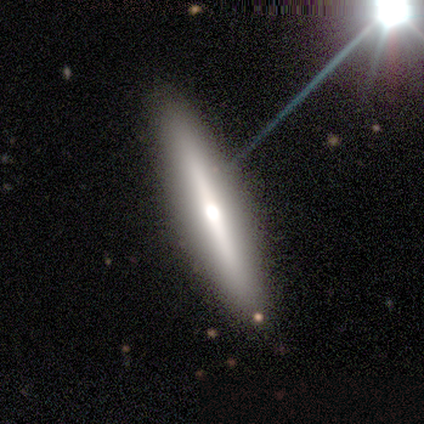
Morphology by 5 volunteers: Smooth or featured? smooth (40%, tied with featured or disk)
How rounded? cigar-shaped (100%)
Merging? none (75%)